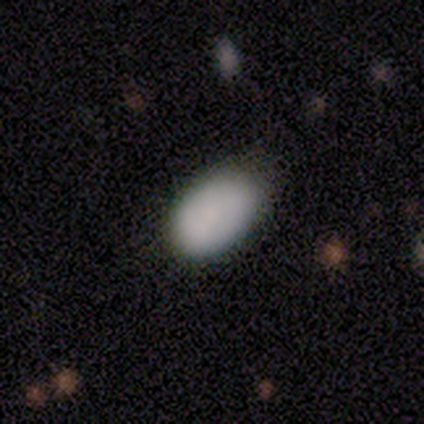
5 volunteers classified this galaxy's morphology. This appears to be a smooth galaxy with no disk features (60%) that is in between round and cigar-shaped (100%). Merging: none (60%).